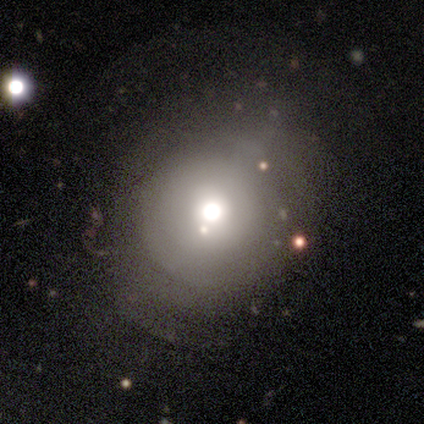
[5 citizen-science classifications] Smooth or featured: smooth — 60% (featured or disk — 20%)
How rounded: round — 67% (in between — 33%)
Merging: none — 50% (tied with minor disturbance — 50%)